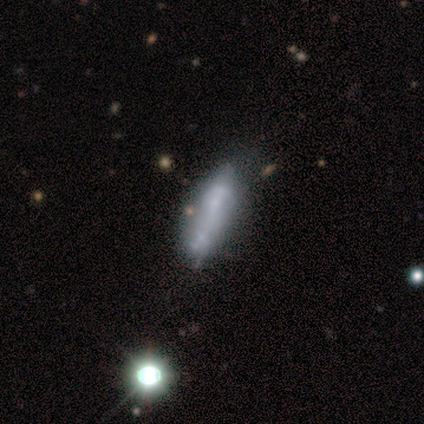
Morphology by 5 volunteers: Smooth or featured? smooth (60%)
How rounded? in between (67%)
Merging? none (60%)